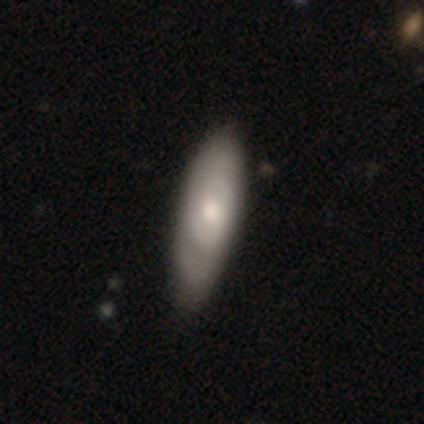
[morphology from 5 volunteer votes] type=smooth (80%); roundness=cigar-shaped (75%); merging=none (60%).